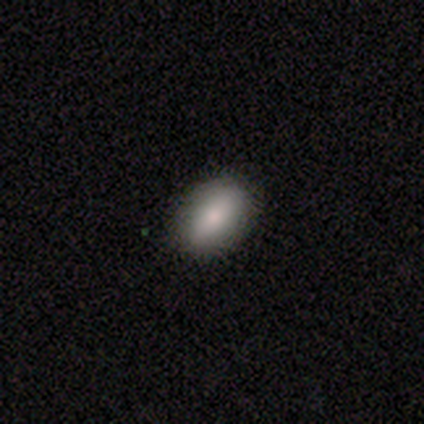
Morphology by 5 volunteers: Smooth or featured?
  - smooth: 80% *
  - star or artifact: 20%
  - featured or disk: 0%
How rounded?
  - in between: 100% *
  - round: 0%
  - cigar-shaped: 0%
Merging?
  - none: 75% *
  - minor disturbance: 25%
  - major disturbance: 0%
  - merger: 0%